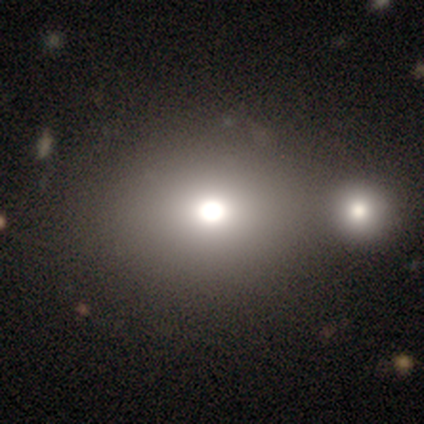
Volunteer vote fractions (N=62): Volunteers were most divided on "how rounded": round: 51%, in between: 49%, cigar-shaped: 0%. Remaining: smooth or featured — smooth (82%); merging — merger (45%).